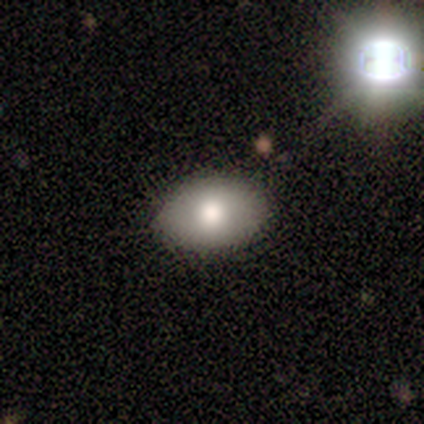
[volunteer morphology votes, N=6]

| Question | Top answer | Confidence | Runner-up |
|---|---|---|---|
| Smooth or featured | smooth | 50% | tied: featured or disk (50%) |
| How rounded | in between | 100% | — |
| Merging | none | 83% | minor disturbance (17%) |